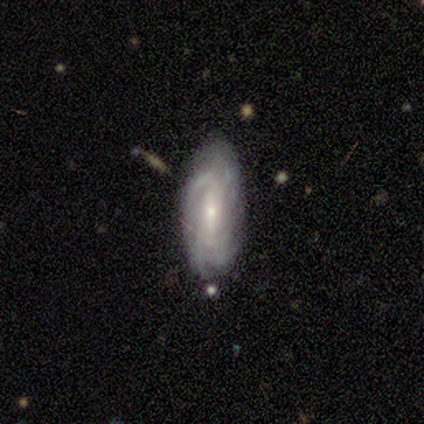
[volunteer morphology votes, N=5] featured or disk 100%, smooth 0%, star or artifact 0%. Down the decision tree: edge-on disk — no (100%); bar — weak (40%, tied with no); spiral arms — yes (100%); spiral arm count — can't tell (80%); spiral winding — tight (80%); bulge size — small (100%); merging — none (80%).